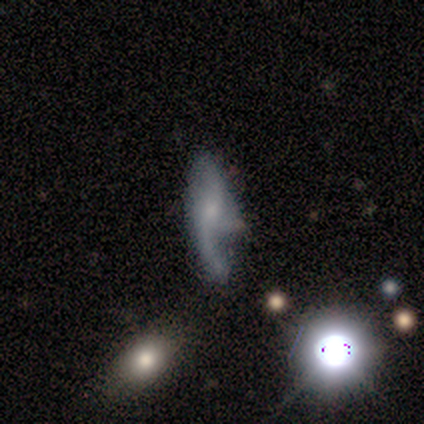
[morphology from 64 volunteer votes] Q: Smooth or featured?
A: featured or disk (66%); runner-up: smooth (17%)
Q: Edge-on disk?
A: no (95%); runner-up: yes (5%)
Q: Bar?
A: no (68%); runner-up: weak (30%)
Q: Spiral arms?
A: yes (82%); runner-up: no (18%)
Q: Spiral winding?
A: loose (73%); runner-up: medium (21%)
Q: Spiral arm count?
A: 2 (82%); runner-up: 1 (12%)
Q: Bulge size?
A: small (50%); runner-up: moderate (35%)
Q: Merging?
A: minor disturbance (40%); runner-up: none (28%)